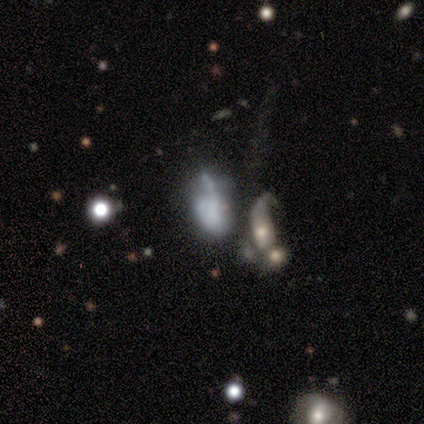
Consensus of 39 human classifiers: smooth_or_featured: smooth (p=0.49) [alt: featured or disk p=0.44]
how_rounded: in between (p=0.95) [alt: round p=0.05]
merging: merger (p=0.39) [alt: major disturbance p=0.28]